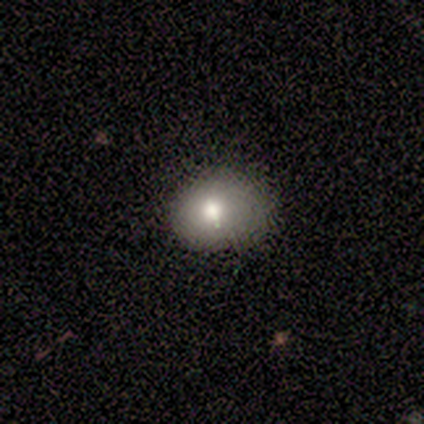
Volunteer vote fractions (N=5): Smooth or featured: star or artifact — 60% (smooth — 40%)